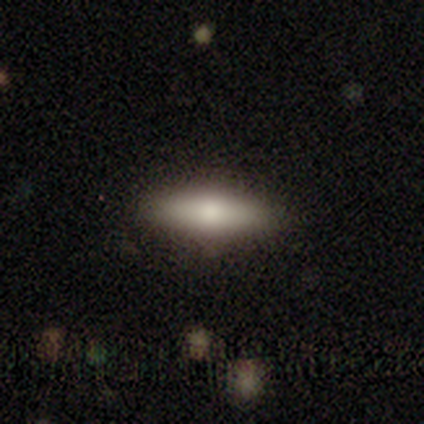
Morphology: type=smooth (60%); roundness=in between (100%); merging=none (50%, tied with minor disturbance).